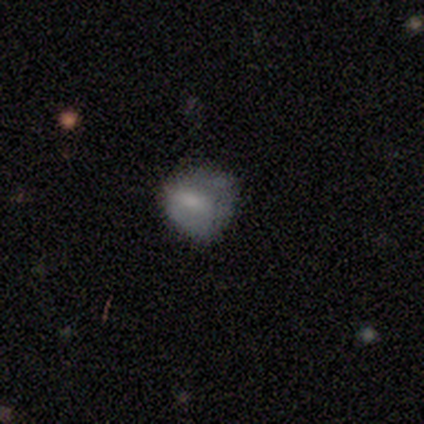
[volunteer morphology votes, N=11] Overall: smooth (64%; featured or disk 36%). How rounded: round (71%). Merging: none (55%; minor disturbance 45%).